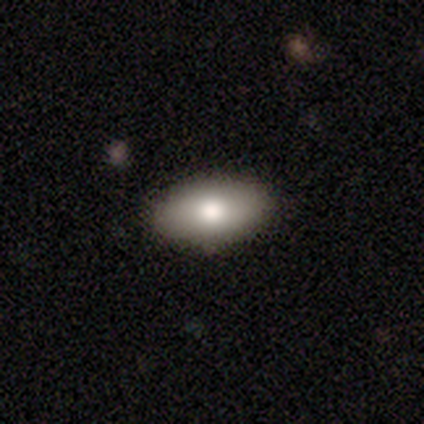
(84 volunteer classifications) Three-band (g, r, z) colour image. It shows a smooth galaxy with no disk features (83%) that is in between round and cigar-shaped (93%). Merging: none (86%).